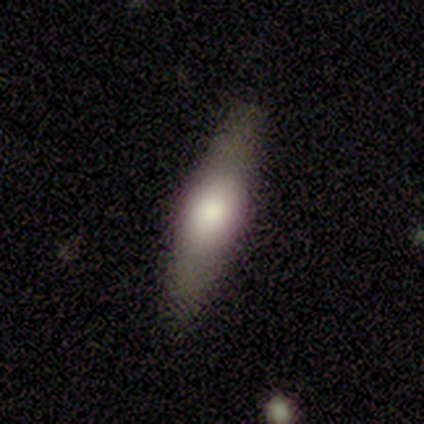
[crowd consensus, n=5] smooth-or-featured: smooth: 80% | featured or disk: 20% | star or artifact: 0%
  how-rounded: cigar-shaped: 100% | round: 0% | in between: 0%
  merging: none: 100% | minor disturbance: 0% | major disturbance: 0% | merger: 0%